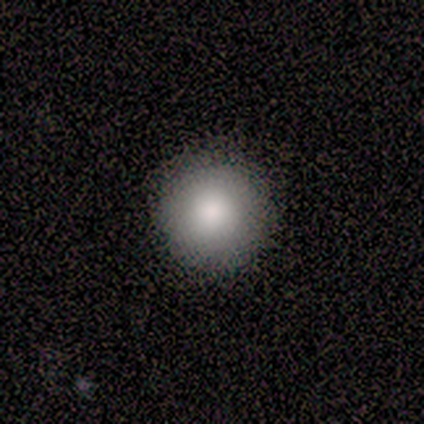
Smooth or featured: smooth — 100%
How rounded: round — 100%
Merging: none — 100%